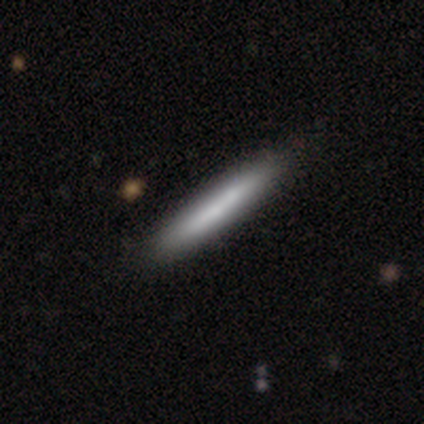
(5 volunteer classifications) Overall: smooth (80%). How rounded: cigar-shaped (100%). Merging: none (80%).